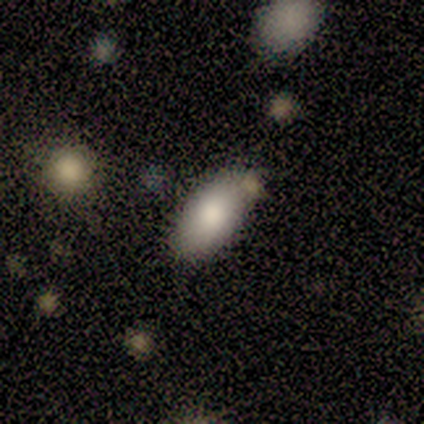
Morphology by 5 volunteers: smooth 80%, featured or disk 20%, star or artifact 0%. Down the decision tree: how rounded — in between (100%); merging — none (80%).